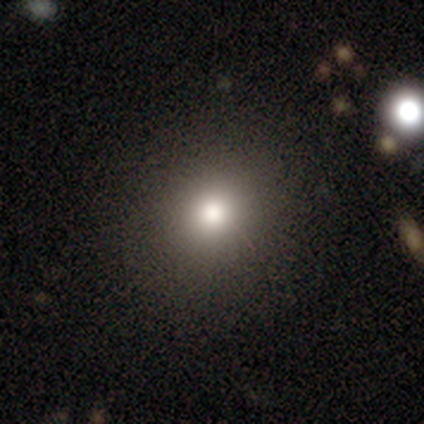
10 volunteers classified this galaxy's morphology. Q: Smooth or featured?
A: smooth (80%); runner-up: star or artifact (20%)
Q: How rounded?
A: round (88%); runner-up: in between (12%)
Q: Merging?
A: none (88%); runner-up: minor disturbance (12%)